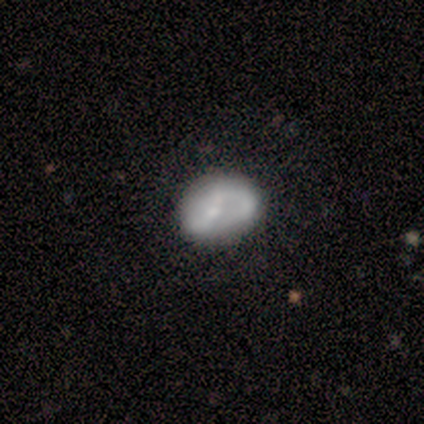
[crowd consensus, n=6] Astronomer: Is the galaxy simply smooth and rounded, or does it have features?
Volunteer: featured or disk — 83%.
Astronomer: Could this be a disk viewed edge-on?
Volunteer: no — 100%.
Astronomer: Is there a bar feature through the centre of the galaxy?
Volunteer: no — 80%.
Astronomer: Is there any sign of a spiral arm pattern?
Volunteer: yes — 60% (runner-up: no, 40%).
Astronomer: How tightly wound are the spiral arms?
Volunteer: loose — 67%.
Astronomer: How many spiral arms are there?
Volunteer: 2 — 67%.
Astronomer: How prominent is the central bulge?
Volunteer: moderate — 40%, tied with small at 40%.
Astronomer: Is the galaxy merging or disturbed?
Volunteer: none — 67%.